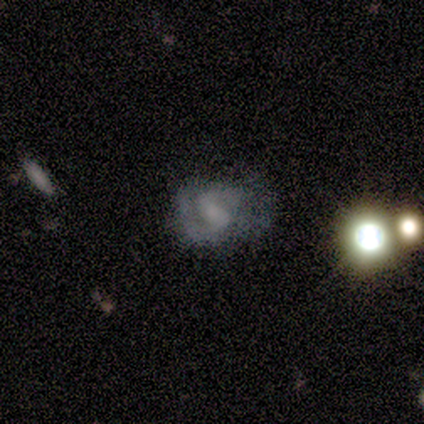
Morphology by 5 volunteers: Smooth or featured? 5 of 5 (100%) said featured or disk. Edge-on disk? 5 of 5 (100%) said no. Bar? 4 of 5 (80%) said no. Spiral arms? 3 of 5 (60%) said yes. Spiral winding? 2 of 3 (67%) said tight. Spiral arm count? 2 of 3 (67%) said 2. Bulge size? 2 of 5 (40%, tied with none) said small. Merging? 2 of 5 (40%, tied with major disturbance) said none.